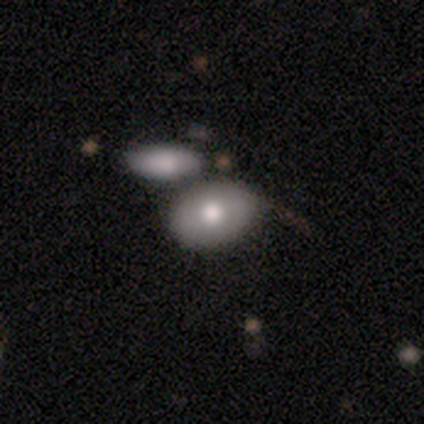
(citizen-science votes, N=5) Q: Smooth or featured?
A: smooth (80%); runner-up: star or artifact (20%)
Q: How rounded?
A: in between (75%); runner-up: round (25%)
Q: Merging?
A: none (75%); runner-up: merger (25%)